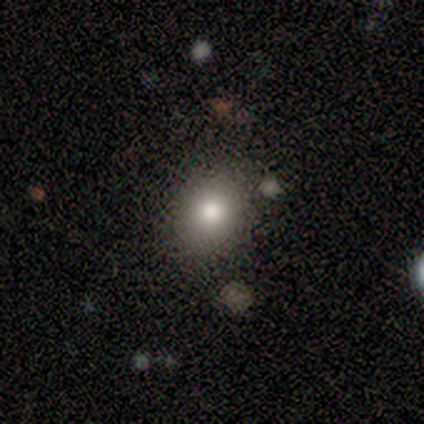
A smooth galaxy with no disk features (80%) that is round (75%). Merging: none (80%).